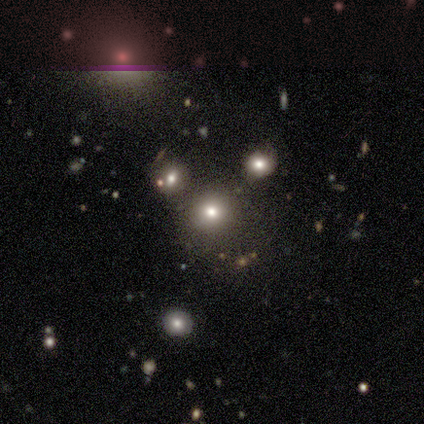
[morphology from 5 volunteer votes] Smooth or featured? 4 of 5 (80%) said smooth. How rounded? 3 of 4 (75%) said round. Merging? 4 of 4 (100%) said none.